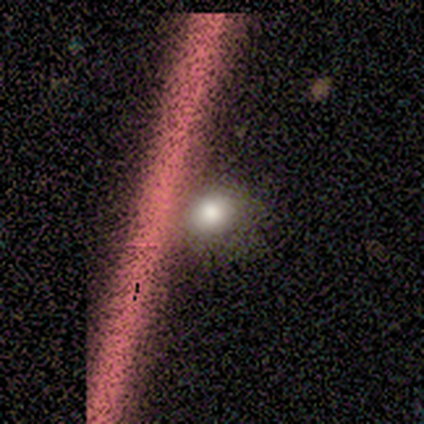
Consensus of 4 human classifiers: Smooth or featured? 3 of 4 (75%) said star or artifact.